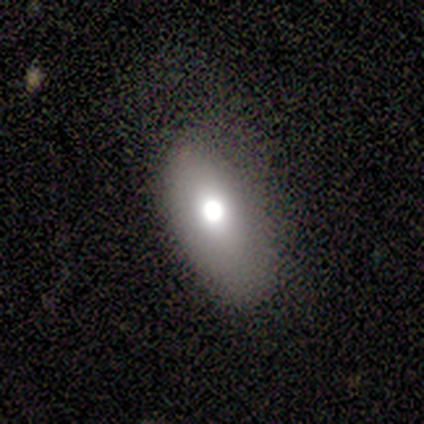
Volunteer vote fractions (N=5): A smooth galaxy with no disk features (80%) that is in between round and cigar-shaped (75%). Merging: none (50%, tied with minor disturbance).